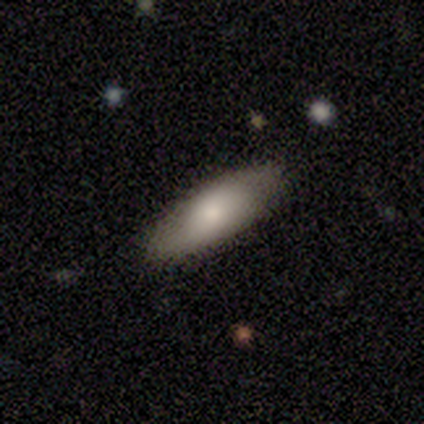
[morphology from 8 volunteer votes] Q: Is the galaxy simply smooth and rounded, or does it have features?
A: smooth — 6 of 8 (75%).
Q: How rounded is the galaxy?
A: cigar-shaped — 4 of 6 (67%).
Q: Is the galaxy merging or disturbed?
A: none — 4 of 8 (50%, tied with minor disturbance).